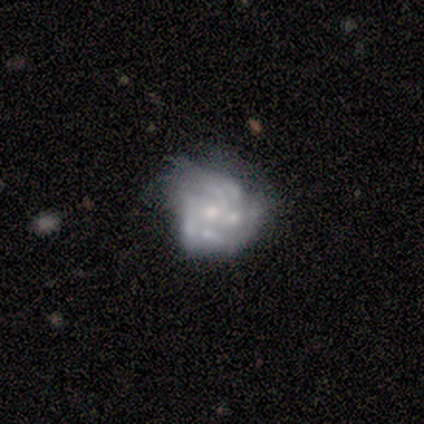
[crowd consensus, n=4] featured or disk 50%, smooth 25%, star or artifact 25%. Down the decision tree: edge-on disk — no (100%); bar — no (100%); spiral arms — yes (100%); spiral arm count — 3 (50%, tied with more than 4); spiral winding — tight (50%, tied with medium); bulge size — moderate (50%, tied with small); merging — minor disturbance (100%).